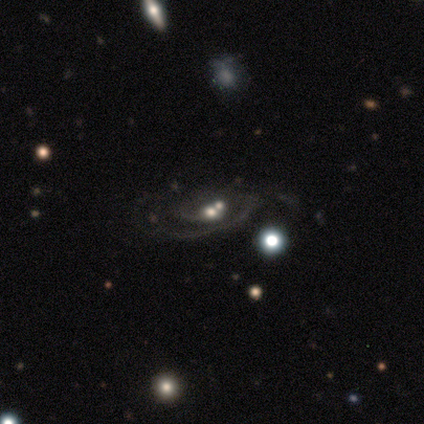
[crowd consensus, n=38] Volunteers were most divided on "bulge size": moderate: 48%, small: 29%, dominant: 10%, large: 6%, none: 6%. More confident: edge-on disk — no (94%); spiral arms — yes (90%); smooth or featured — featured or disk (87%); bar — no (84%); merging — merger (65%); spiral winding — tight (54%); spiral arm count — 2 (50%).